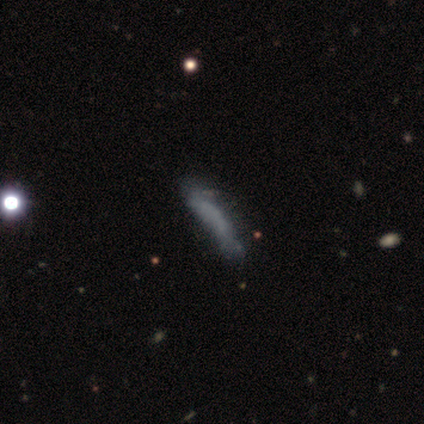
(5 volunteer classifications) smooth-or-featured: smooth: 60% | star or artifact: 40% | featured or disk: 0%
  how-rounded: cigar-shaped: 100% | round: 0% | in between: 0%
  merging: major disturbance: 67% | none: 33% | minor disturbance: 0% | merger: 0%